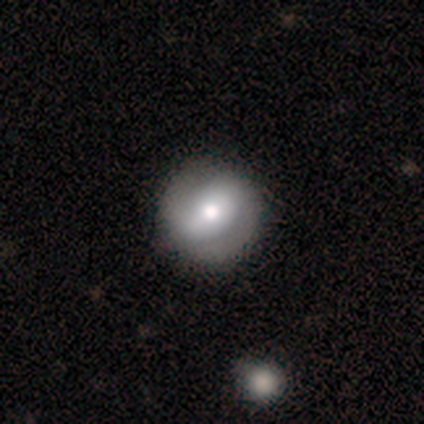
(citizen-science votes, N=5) Overall: smooth (40%, tied with featured or disk). How rounded: round (100%). Merging: none (75%).